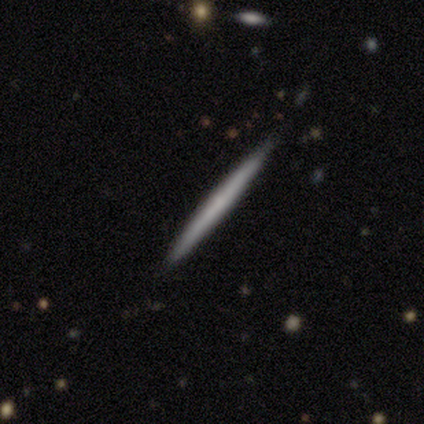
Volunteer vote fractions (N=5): Smooth or featured?
  - featured or disk: 60% *
  - smooth: 40%
  - star or artifact: 0%
Edge-on disk?
  - yes: 100% *
  - no: 0%
Edge-on bulge?
  - none: 67% *
  - rounded: 33%
  - boxy: 0%
Merging?
  - none: 80% *
  - minor disturbance: 20%
  - major disturbance: 0%
  - merger: 0%